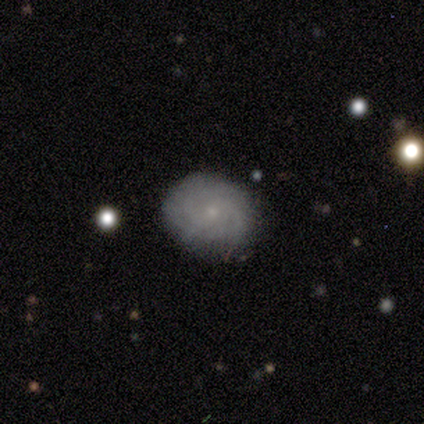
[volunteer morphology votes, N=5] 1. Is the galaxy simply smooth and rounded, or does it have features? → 80% featured or disk, 20% smooth, 0% star or artifact.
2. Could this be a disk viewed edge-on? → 100% no, 0% yes.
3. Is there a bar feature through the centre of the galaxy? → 50% weak (tied), 50% no (tied), 0% strong.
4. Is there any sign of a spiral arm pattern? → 100% yes, 0% no.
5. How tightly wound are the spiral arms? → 100% tight, 0% medium, 0% loose.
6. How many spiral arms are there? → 75% can't tell, 25% 4, 0% 1, 0% 2, 0% 3, 0% more than 4.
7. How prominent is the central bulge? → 100% small, 0% dominant, 0% large, 0% moderate, 0% none.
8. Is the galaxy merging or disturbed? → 100% none, 0% minor disturbance, 0% major disturbance, 0% merger.